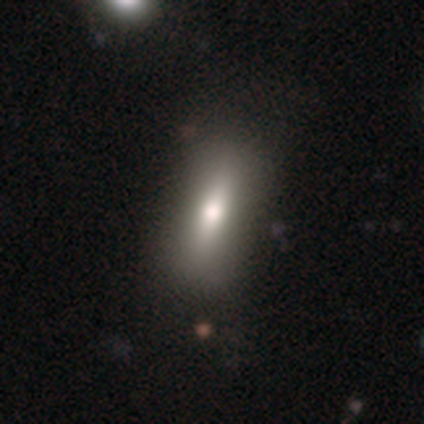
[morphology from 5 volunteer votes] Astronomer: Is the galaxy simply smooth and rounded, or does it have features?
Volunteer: smooth — 100%.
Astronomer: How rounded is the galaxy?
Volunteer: cigar-shaped — 60% (runner-up: in between, 40%).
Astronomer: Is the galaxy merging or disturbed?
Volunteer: none — 80%.